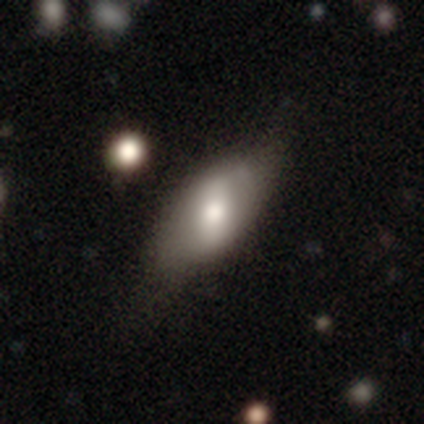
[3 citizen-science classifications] This appears to be a smooth galaxy with no disk features (67%) that is in between round and cigar-shaped (100%). Merging: none (100%).